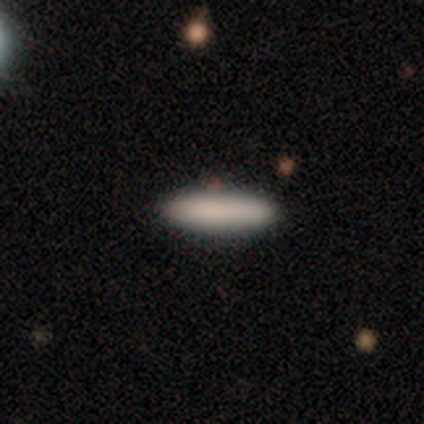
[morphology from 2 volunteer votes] This is clearly a smooth galaxy (100%). How rounded: possibly in between (50%, tied with cigar-shaped). Merging: clearly none (100%).